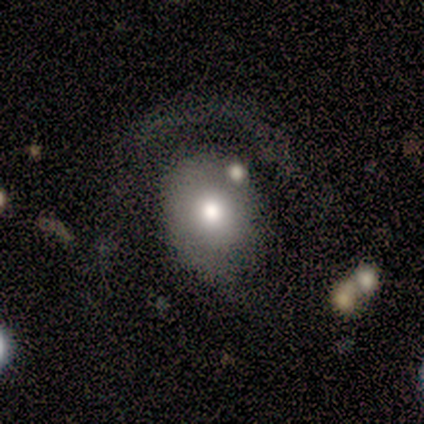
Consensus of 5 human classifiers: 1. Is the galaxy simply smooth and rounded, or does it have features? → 80% smooth, 20% featured or disk, 0% star or artifact.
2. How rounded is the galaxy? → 100% in between, 0% round, 0% cigar-shaped.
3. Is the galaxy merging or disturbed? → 60% minor disturbance, 20% major disturbance, 20% merger, 0% none.